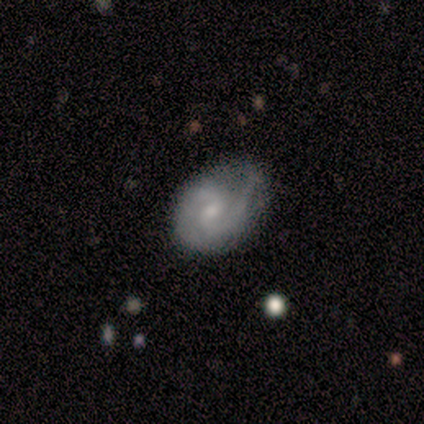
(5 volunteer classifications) Smooth or featured? featured or disk (60%)
Edge-on disk? no (100%)
Bar? weak (100%)
Spiral arms? yes (67%)
Spiral winding? medium (100%)
Spiral arm count? 2 (100%)
Bulge size? moderate (67%)
Merging? major disturbance (50%)